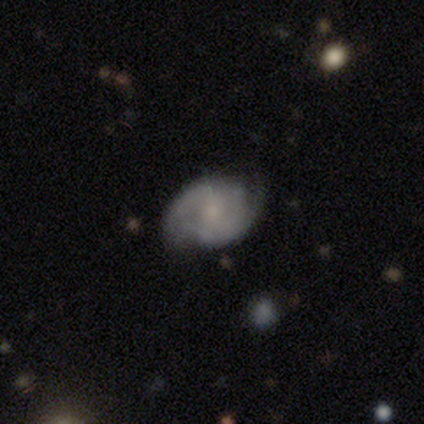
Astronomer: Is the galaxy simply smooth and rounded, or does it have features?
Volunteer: featured or disk — 64%.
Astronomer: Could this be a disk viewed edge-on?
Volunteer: no — 100%.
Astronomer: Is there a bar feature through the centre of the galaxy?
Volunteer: no — 68%.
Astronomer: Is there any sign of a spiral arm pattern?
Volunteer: yes — 93%.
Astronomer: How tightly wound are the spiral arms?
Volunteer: medium — 50% (runner-up: tight, 35%).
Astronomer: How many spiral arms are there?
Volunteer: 2 — 65%.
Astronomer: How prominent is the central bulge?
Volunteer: small — 68%.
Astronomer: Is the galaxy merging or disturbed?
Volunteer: none — 58% (runner-up: minor disturbance, 37%).